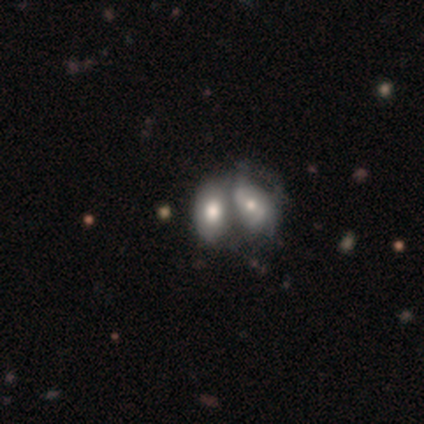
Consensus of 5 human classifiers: Morphology: type=featured or disk (80%); edge-on=no (100%); bar=no (50%); spiral arms=no (75%); bulge=moderate (50%, tied with small); merging=merger (100%).